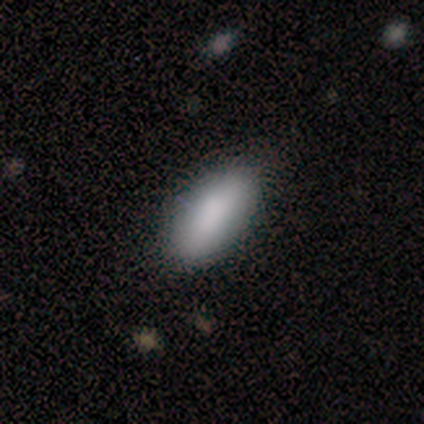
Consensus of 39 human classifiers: Volunteers were most divided on "smooth or featured": smooth: 82%, star or artifact: 10%, featured or disk: 8%. More confident: merging — none (91%); how rounded — in between (84%).